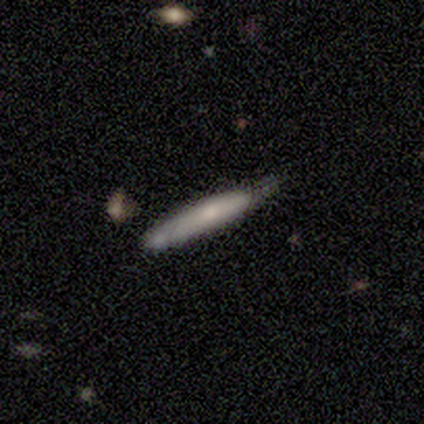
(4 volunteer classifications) Smooth or featured? 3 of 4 (75%) said smooth. How rounded? 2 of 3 (67%) said cigar-shaped. Merging? 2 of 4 (50%) said none.